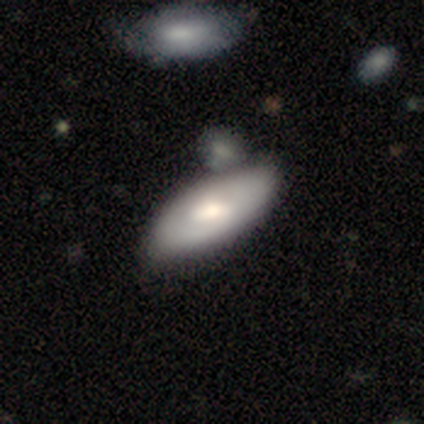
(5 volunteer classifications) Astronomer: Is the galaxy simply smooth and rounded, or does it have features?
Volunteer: featured or disk — 60% (runner-up: smooth, 40%).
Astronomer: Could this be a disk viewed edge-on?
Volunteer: yes — 67%.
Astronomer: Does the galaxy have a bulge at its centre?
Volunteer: rounded — 100%.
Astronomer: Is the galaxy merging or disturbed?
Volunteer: none — 80%.